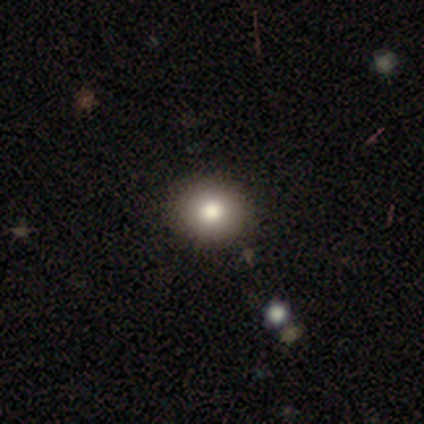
Overall: smooth (75%). How rounded: round (67%; in between 33%). Merging: none (67%; minor disturbance 33%).